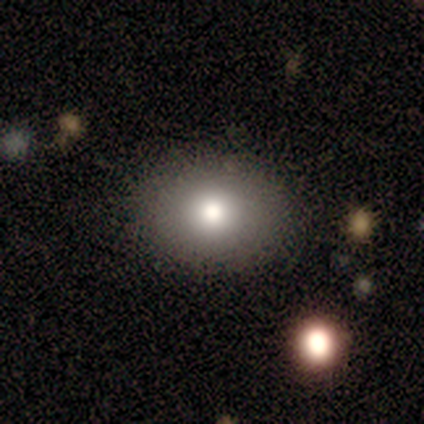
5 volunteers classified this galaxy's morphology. This is clearly a smooth galaxy (80%). How rounded: possibly round (50%, tied with in between). Merging: clearly none (100%).